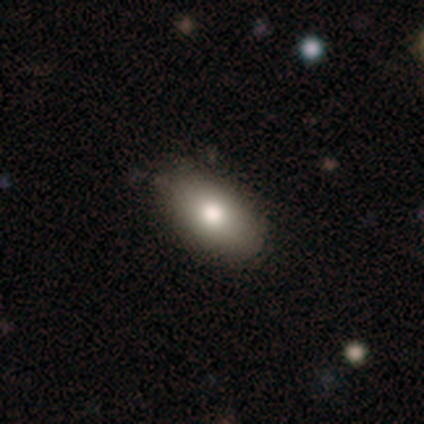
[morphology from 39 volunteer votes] Smooth or featured: smooth — 77% (featured or disk — 21%)
How rounded: in between — 90% (cigar-shaped — 7%)
Merging: none — 89% (minor disturbance — 8%)